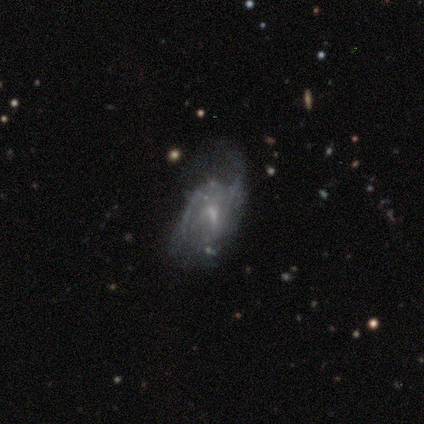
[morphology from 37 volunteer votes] This appears to be a featured or disk galaxy (78%) with no bar (52%), 2 (48%) medium (43%) spiral arms (72%) and a small central bulge (45%). Merging: major disturbance (36%).